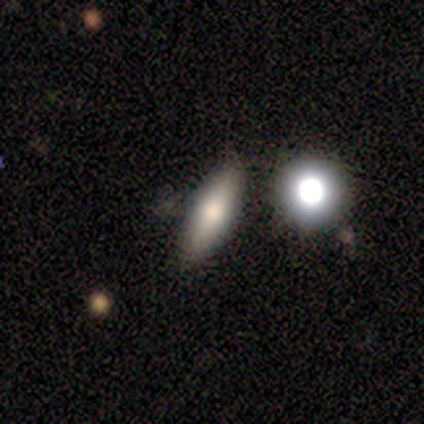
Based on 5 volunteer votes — Overall: smooth (60%; featured or disk 40%). How rounded: cigar-shaped (67%; in between 33%). Merging: none (60%; minor disturbance 40%).